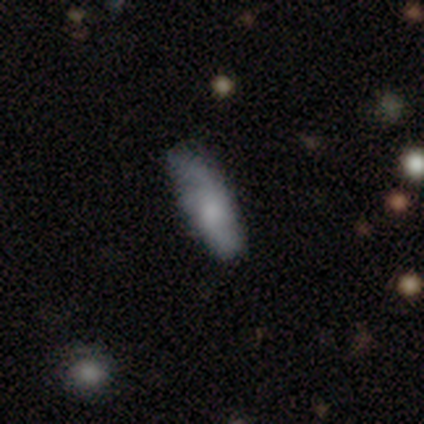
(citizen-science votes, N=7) This is possibly a smooth galaxy (57%). How rounded: possibly in between (50%, tied with cigar-shaped). Merging: clearly none (86%).